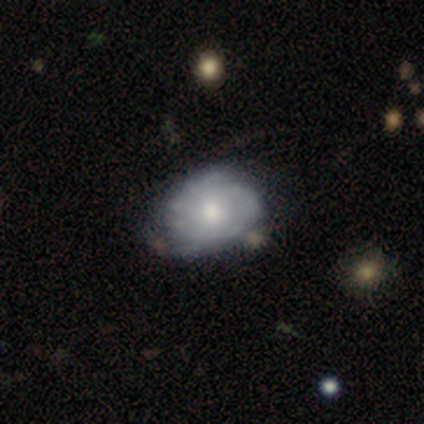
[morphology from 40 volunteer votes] Smooth or featured?
  - featured or disk: 78% *
  - smooth: 18%
  - star or artifact: 5%
Edge-on disk?
  - no: 94% *
  - yes: 6%
Bar?
  - no: 90% *
  - weak: 10%
  - strong: 0%
Spiral arms?
  - yes: 72% *
  - no: 28%
Spiral winding?
  - tight: 67% *
  - medium: 24%
  - loose: 10%
Spiral arm count?
  - can't tell: 48% *
  - 2: 43%
  - 3: 5%
  - more than 4: 5%
  - 1: 0%
  - 4: 0%
Bulge size?
  - moderate: 66% *
  - small: 21%
  - large: 10%
  - dominant: 3%
  - none: 0%
Merging?
  - none: 68% *
  - minor disturbance: 18%
  - merger: 8%
  - major disturbance: 5%